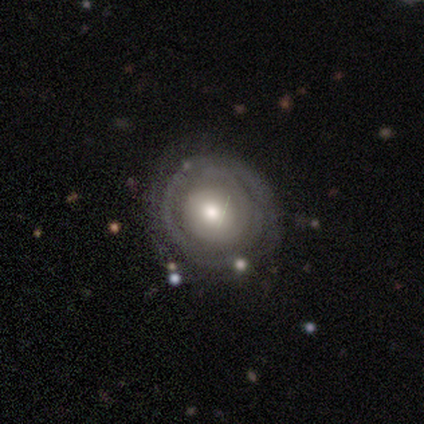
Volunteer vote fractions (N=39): A featured or disk galaxy (67%) with no bar (80%), tight (69%) spiral arms (64%) and a moderate central bulge (60%). Merging: none (49%).